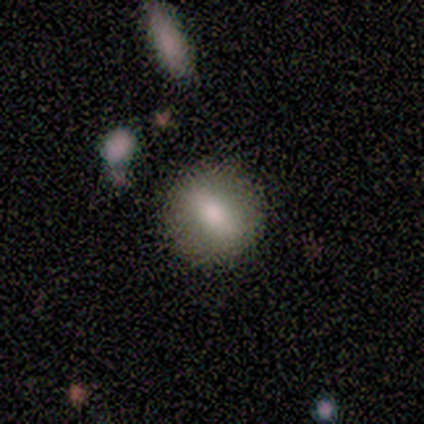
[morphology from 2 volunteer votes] Overall: smooth (100%). How rounded: round (50%, tied with cigar-shaped). Merging: none (100%).